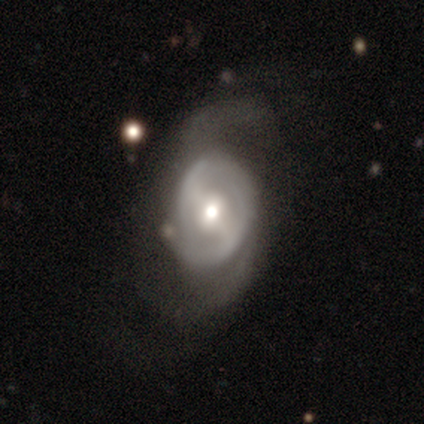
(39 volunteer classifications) Volunteers were most divided on "spiral winding": loose: 61%, medium: 35%, tight: 4%. More confident: edge-on disk — no (88%); spiral arms — yes (82%); smooth or featured — featured or disk (82%); bulge size — moderate (71%); spiral arm count — 2 (70%); bar — strong (57%); merging — none (56%).